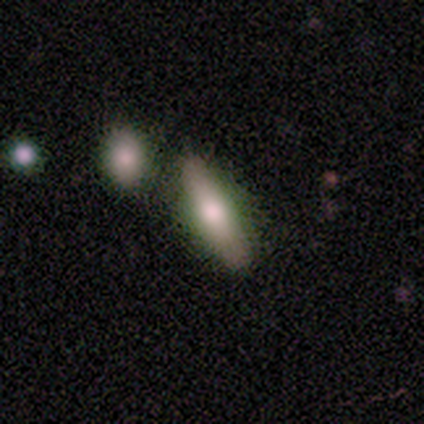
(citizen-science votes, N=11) A smooth galaxy with no disk features (73%) that is cigar-shaped (62%). Merging: none (100%).